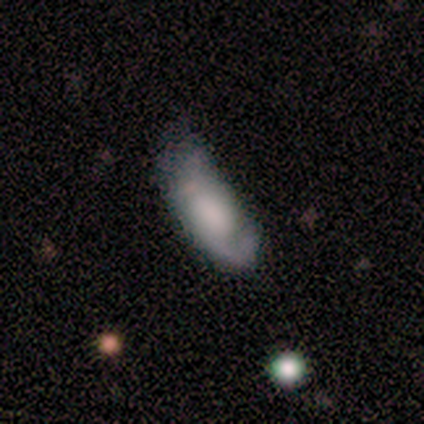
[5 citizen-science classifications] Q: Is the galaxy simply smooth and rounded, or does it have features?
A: smooth — 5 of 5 (100%).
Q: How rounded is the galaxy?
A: in between — 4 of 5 (80%).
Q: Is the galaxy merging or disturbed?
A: major disturbance — 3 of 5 (60%).